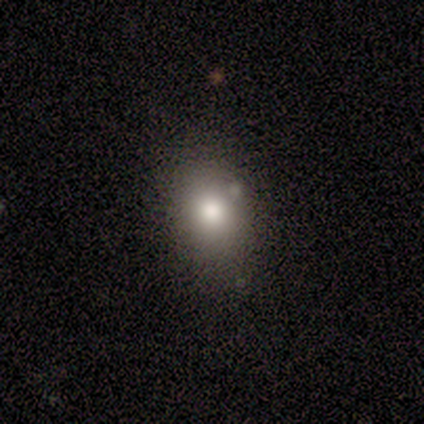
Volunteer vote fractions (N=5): star or artifact 60%, featured or disk 40%, smooth 0%.